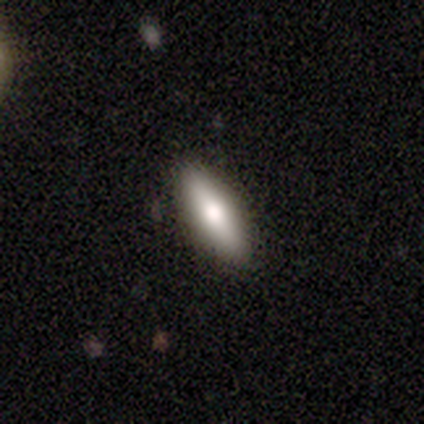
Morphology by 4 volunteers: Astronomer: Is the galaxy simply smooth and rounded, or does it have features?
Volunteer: smooth — 75%.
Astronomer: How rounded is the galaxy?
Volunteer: in between — 67%.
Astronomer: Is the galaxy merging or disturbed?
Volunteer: none — 100%.